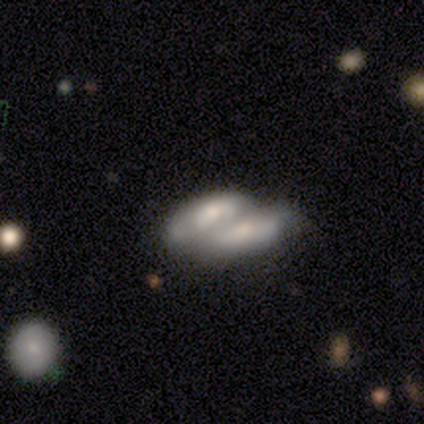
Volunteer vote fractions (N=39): This appears to be a smooth galaxy with no disk features (59%) that is in between round and cigar-shaped (87%). Merging: merger (79%).